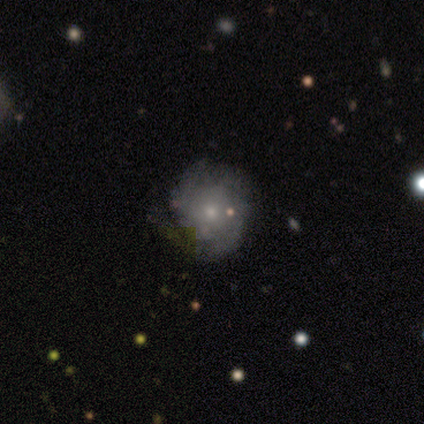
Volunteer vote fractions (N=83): Smooth or featured? 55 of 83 (66%) said featured or disk. Edge-on disk? 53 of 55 (96%) said no. Bar? 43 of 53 (81%) said no. Spiral arms? 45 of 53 (85%) said yes. Spiral winding? 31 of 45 (69%) said tight. Spiral arm count? 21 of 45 (47%) said 2. Bulge size? 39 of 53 (74%) said small. Merging? 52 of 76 (68%) said none.